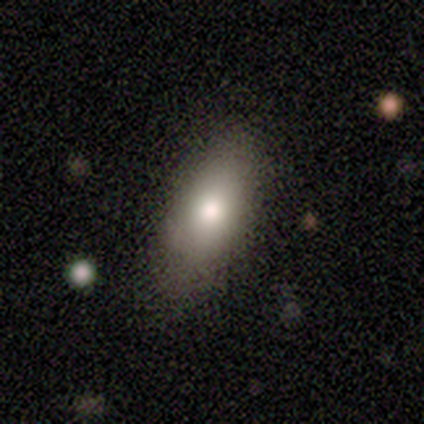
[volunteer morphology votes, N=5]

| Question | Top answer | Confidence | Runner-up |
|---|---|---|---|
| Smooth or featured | smooth | 100% | — |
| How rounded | in between | 80% | cigar-shaped (20%) |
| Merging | none | 100% | — |